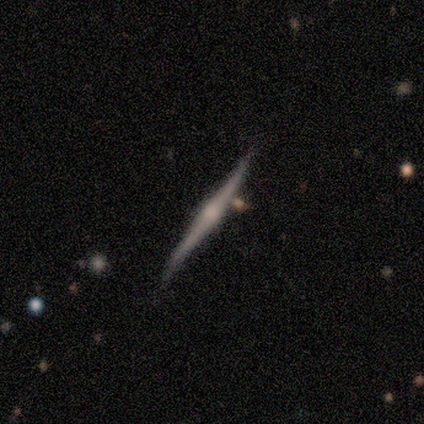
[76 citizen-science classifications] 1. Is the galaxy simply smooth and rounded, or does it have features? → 79% featured or disk, 17% smooth, 4% star or artifact.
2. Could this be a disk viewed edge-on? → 100% yes, 0% no.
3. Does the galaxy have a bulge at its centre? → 82% rounded, 18% none, 0% boxy.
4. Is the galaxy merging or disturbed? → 77% none, 21% minor disturbance, 3% merger, 0% major disturbance.